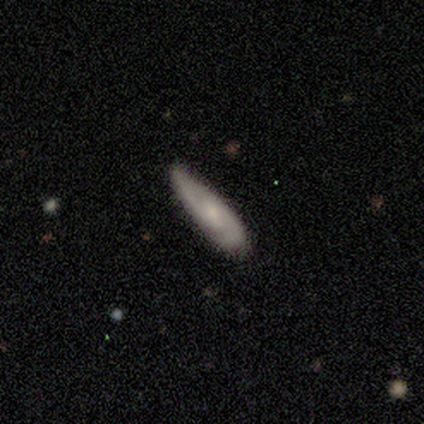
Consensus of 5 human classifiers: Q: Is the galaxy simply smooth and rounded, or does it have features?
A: featured or disk — 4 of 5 (80%).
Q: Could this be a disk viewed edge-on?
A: no — 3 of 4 (75%).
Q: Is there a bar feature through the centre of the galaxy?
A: no — 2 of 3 (67%).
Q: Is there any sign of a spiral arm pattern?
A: yes — 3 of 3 (100%).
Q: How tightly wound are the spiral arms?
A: tight — 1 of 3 (33%, tied with medium and loose).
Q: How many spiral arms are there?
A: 2 — 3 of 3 (100%).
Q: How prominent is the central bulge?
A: small — 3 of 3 (100%).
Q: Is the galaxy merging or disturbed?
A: minor disturbance — 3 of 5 (60%).